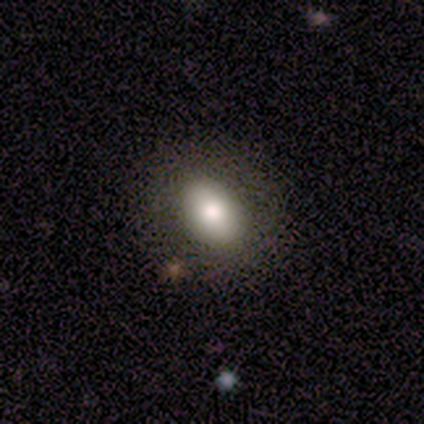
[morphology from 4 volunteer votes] A smooth galaxy with no disk features (75%) that is round (67%).

Vote fractions:
- Smooth or featured? smooth: 75% / featured or disk: 25% / star or artifact: 0%
- How rounded? round: 67% / in between: 33% / cigar-shaped: 0%
- Merging? none: 75% / minor disturbance: 25% / major disturbance: 0% / merger: 0%